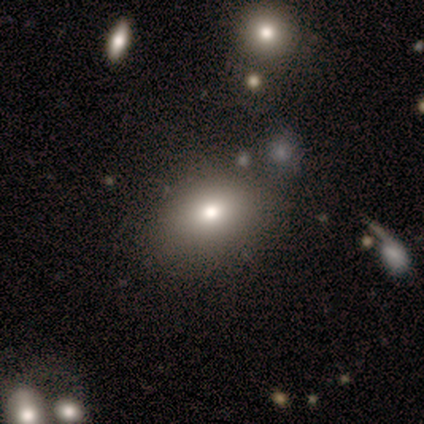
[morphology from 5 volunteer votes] A smooth galaxy with no disk features (80%) that is in between round and cigar-shaped (100%).

Vote fractions:
- Smooth or featured? smooth: 80% / star or artifact: 20% / featured or disk: 0%
- How rounded? in between: 100% / round: 0% / cigar-shaped: 0%
- Merging? none: 100% / minor disturbance: 0% / major disturbance: 0% / merger: 0%